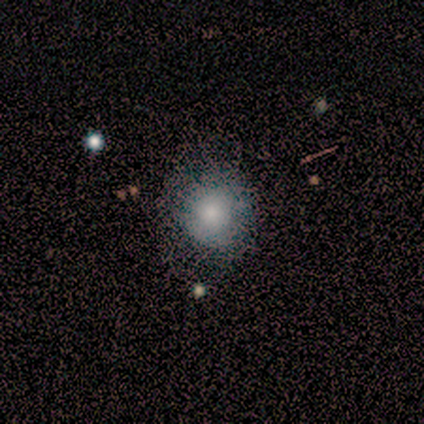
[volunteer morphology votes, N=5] Q: Smooth or featured?
A: smooth (100%)
Q: How rounded?
A: round (40%); tied with: in between (40%)
Q: Merging?
A: none (60%); runner-up: minor disturbance (20%)